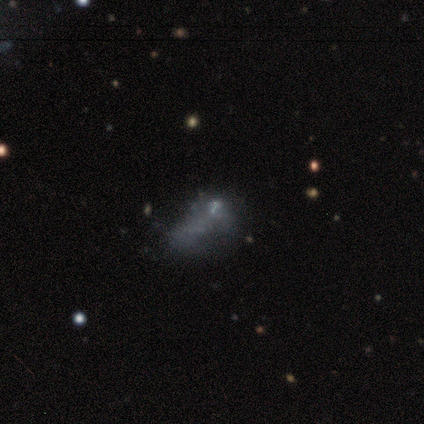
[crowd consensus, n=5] Smooth or featured? 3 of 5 (60%) said smooth. How rounded? 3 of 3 (100%) said in between. Merging? 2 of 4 (50%) said none.